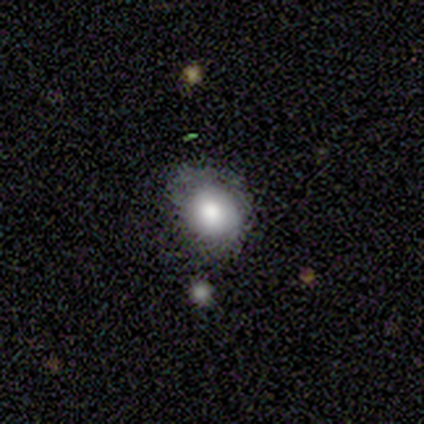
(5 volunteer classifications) smooth-or-featured: smooth: 40% (tied) | featured or disk: 40% (tied) | star or artifact: 20%
  how-rounded: round: 100% | in between: 0% | cigar-shaped: 0%
  merging: major disturbance: 50% | none: 25% | merger: 25% | minor disturbance: 0%